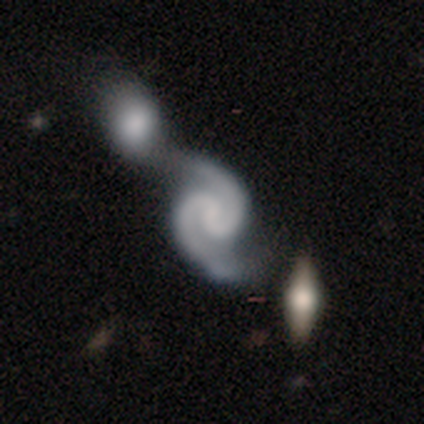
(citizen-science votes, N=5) Q: Smooth or featured?
A: featured or disk (100%)
Q: Edge-on disk?
A: no (100%)
Q: Bar?
A: weak (60%); runner-up: no (40%)
Q: Spiral arms?
A: yes (100%)
Q: Spiral winding?
A: medium (60%); runner-up: tight (20%)
Q: Spiral arm count?
A: 2 (100%)
Q: Bulge size?
A: none (80%); runner-up: small (20%)
Q: Merging?
A: minor disturbance (40%); tied with: merger (40%)